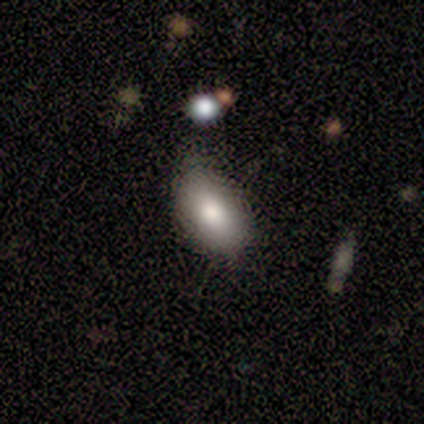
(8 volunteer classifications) A smooth galaxy with no disk features (75%) that is in between round and cigar-shaped (100%). Merging: none (86%).